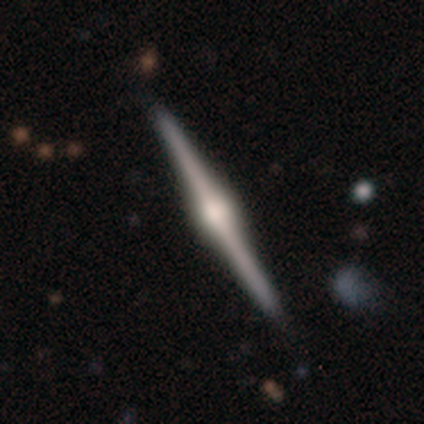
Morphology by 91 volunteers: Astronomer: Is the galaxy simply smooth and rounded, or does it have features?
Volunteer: featured or disk — 92%.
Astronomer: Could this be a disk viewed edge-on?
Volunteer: yes — 99%.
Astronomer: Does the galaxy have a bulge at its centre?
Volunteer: rounded — 89%.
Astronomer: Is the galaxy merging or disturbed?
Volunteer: none — 93%.